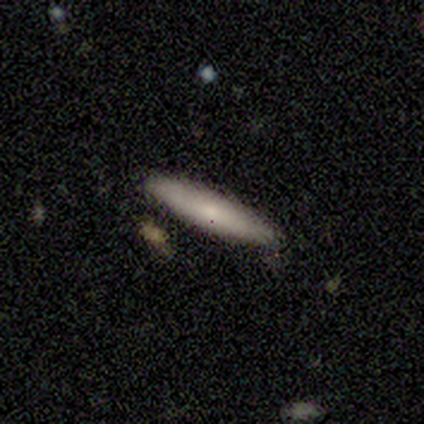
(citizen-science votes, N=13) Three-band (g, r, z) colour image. It shows a smooth galaxy with no disk features (54%) that is cigar-shaped (100%). Merging: none (83%).